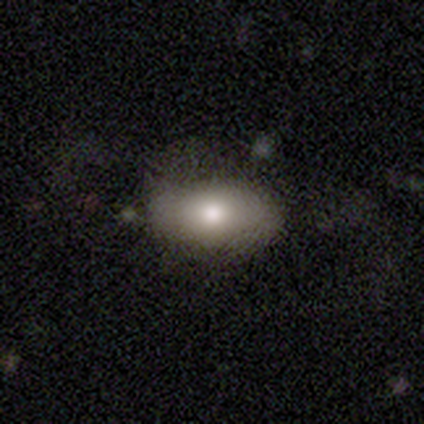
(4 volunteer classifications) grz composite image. It shows a smooth galaxy with no disk features (100%) that is in between round and cigar-shaped (100%). Merging: none (75%).